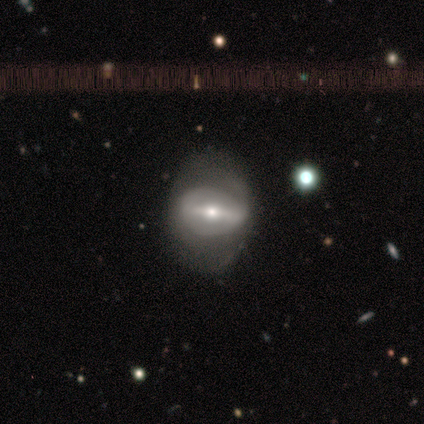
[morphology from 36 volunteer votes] A featured or disk galaxy (75%) with a strong bar (64%), no spiral arms (68%) and a moderate central bulge (56%).

Vote fractions:
- Smooth or featured? featured or disk: 75% / smooth: 25% / star or artifact: 0%
- Edge-on disk? no: 93% / yes: 7%
- Bar? strong: 64% / weak: 28% / no: 8%
- Spiral arms? no: 68% / yes: 32%
- Bulge size? moderate: 56% / small: 36% / large: 8% / dominant: 0% / none: 0%
- Merging? none: 61% / minor disturbance: 28% / major disturbance: 11% / merger: 0%